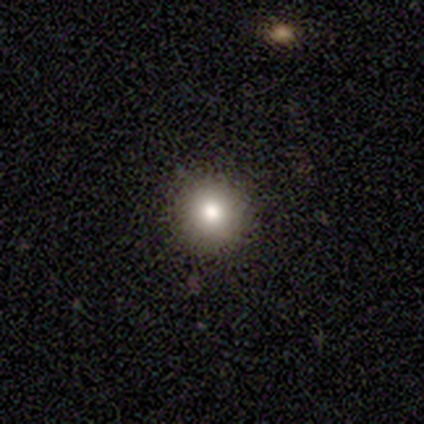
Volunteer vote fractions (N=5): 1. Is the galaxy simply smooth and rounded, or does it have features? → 100% smooth, 0% featured or disk, 0% star or artifact.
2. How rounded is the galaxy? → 100% round, 0% in between, 0% cigar-shaped.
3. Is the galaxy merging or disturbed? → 100% none, 0% minor disturbance, 0% major disturbance, 0% merger.